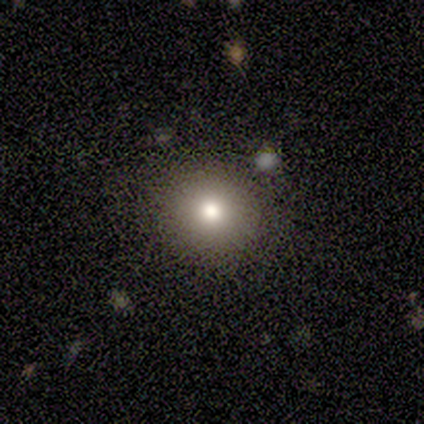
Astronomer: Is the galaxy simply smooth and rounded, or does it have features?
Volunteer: smooth — 100%.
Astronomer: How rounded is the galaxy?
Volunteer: round — 100%.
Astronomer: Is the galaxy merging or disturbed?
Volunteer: minor disturbance — 100%.